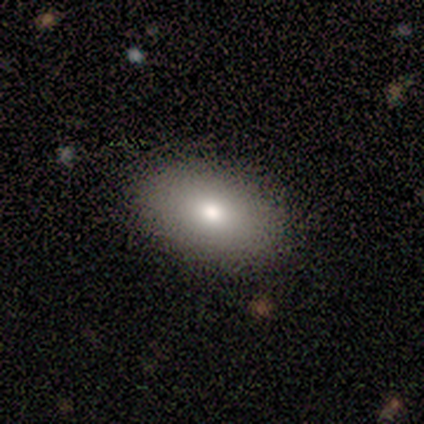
Smooth or featured? smooth (86%)
How rounded? in between (100%)
Merging? none (83%)